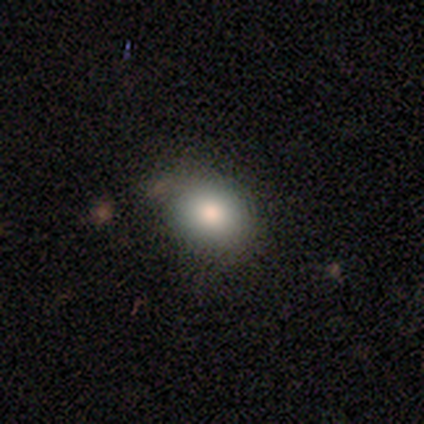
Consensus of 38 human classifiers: smooth 82%, featured or disk 16%, star or artifact 3%. Down the decision tree: how rounded — in between (68%); merging — none (78%).